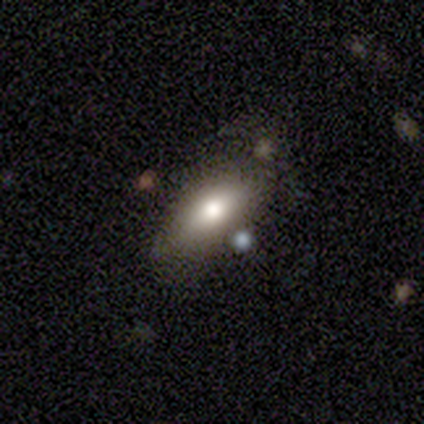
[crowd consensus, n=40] This appears to be a smooth galaxy with no disk features (55%) that is in between round and cigar-shaped (86%). Merging: none (72%).